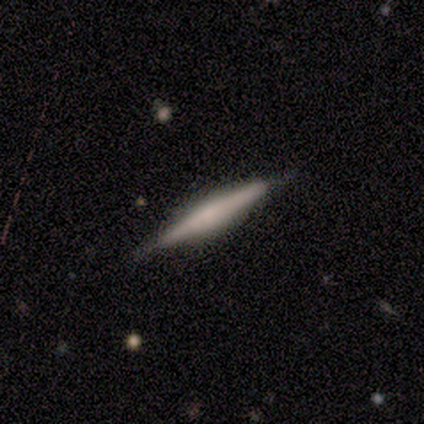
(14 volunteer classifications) This appears to be a smooth galaxy with no disk features (50%, tied with featured or disk) that is cigar-shaped (100%). Merging: none (93%).